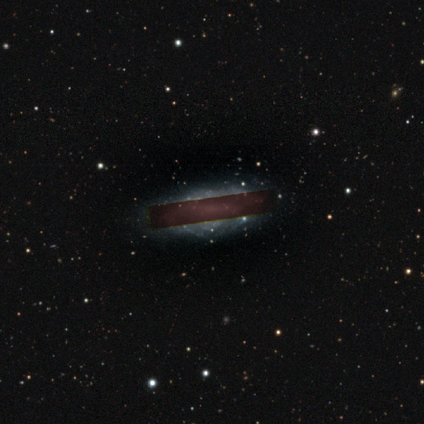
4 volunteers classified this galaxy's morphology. A star or artifact, not a galaxy (75%).

Vote fractions:
- Smooth or featured? star or artifact: 75% / featured or disk: 25% / smooth: 0%